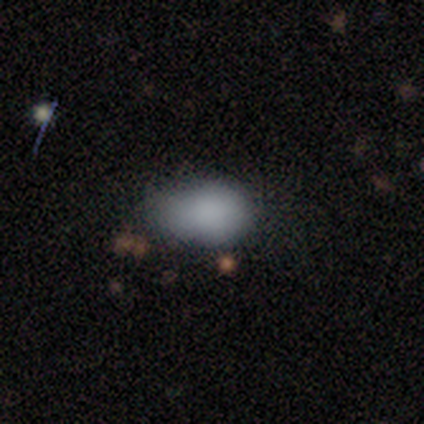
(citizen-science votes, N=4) This appears to be a smooth galaxy with no disk features (50%, tied with star or artifact) that is in between round and cigar-shaped (100%). Merging: minor disturbance (100%).